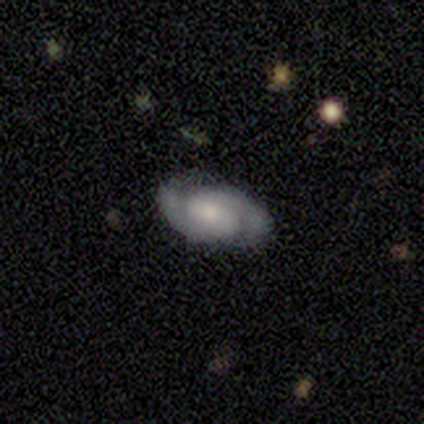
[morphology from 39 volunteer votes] This is likely a featured or disk galaxy (77%). It is clearly not viewed edge-on (93%). Bar: likely weak (61%). Spiral arm pattern: clearly yes (93%). Spiral arm count: clearly 2 (92%). Spiral winding: likely medium (62%). Central bulge: possibly moderate (46%). Merging: clearly none (84%).